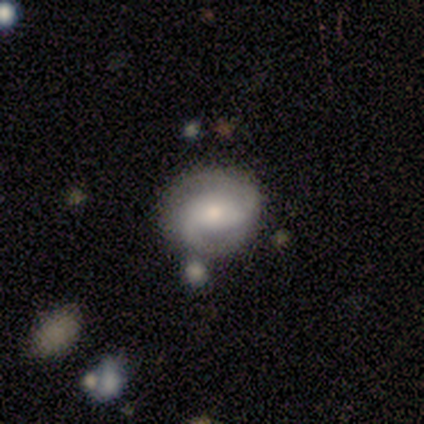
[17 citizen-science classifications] This appears to be a featured or disk galaxy (59%) with a weak bar (80%), 2 (80%) medium (50%) spiral arms (100%) and a moderate central bulge (80%). Merging: none (56%).